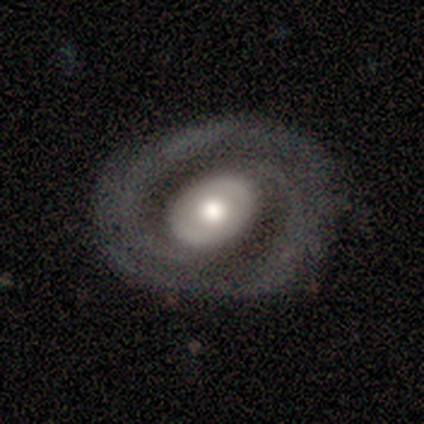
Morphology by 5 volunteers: smooth-or-featured: featured or disk: 80% | smooth: 20% | star or artifact: 0%
  disk-edge-on: no: 100% | yes: 0%
    bar: weak: 50% (tied) | no: 50% (tied) | strong: 0%
    has-spiral-arms: yes: 75% | no: 25%
      spiral-winding: tight: 67% | medium: 33% | loose: 0%
      spiral-arm-count: can't tell: 100% | 1: 0% | 2: 0% | 3: 0% | 4: 0% | more than 4: 0%
    bulge-size: moderate: 100% | dominant: 0% | large: 0% | small: 0% | none: 0%
  merging: none: 100% | minor disturbance: 0% | major disturbance: 0% | merger: 0%